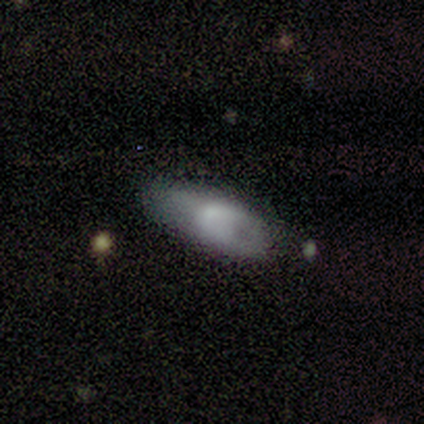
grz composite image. It shows a smooth galaxy with no disk features (71%) that is in between round and cigar-shaped (100%). Merging: none (57%).